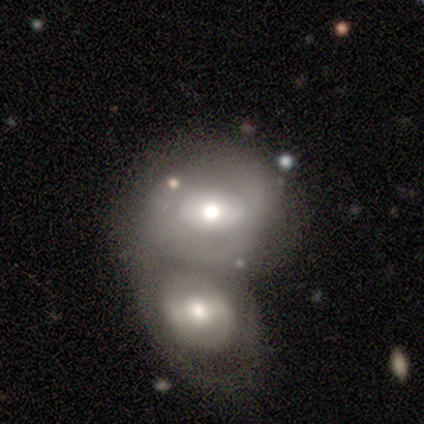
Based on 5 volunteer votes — A featured or disk galaxy (60%) with a strong bar (33%, tied with weak and no), no spiral arms (100%) and a moderate central bulge (100%). Merging: merger (80%).